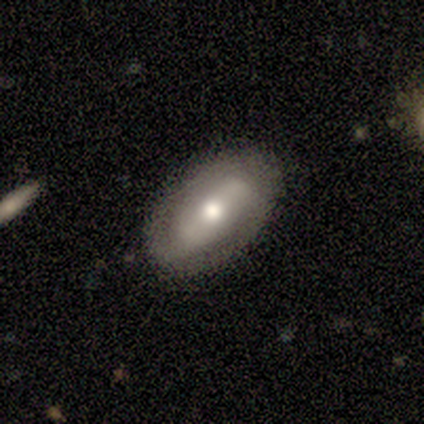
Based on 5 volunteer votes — Smooth or featured? featured or disk (80%)
Edge-on disk? no (75%)
Bar? strong (33%, tied with weak and no)
Spiral arms? yes (67%)
Spiral winding? medium (100%)
Spiral arm count? 3 (50%, tied with can't tell)
Bulge size? moderate (100%)
Merging? none (80%)